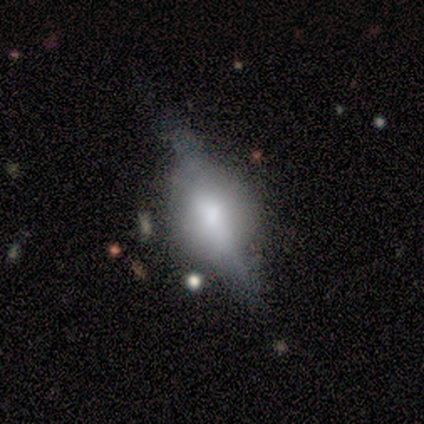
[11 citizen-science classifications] smooth-or-featured: featured or disk: 82% | smooth: 9% | star or artifact: 9%
  disk-edge-on: yes: 89% | no: 11%
    edge-on-bulge: rounded: 100% | boxy: 0% | none: 0%
  merging: none: 80% | minor disturbance: 20% | major disturbance: 0% | merger: 0%